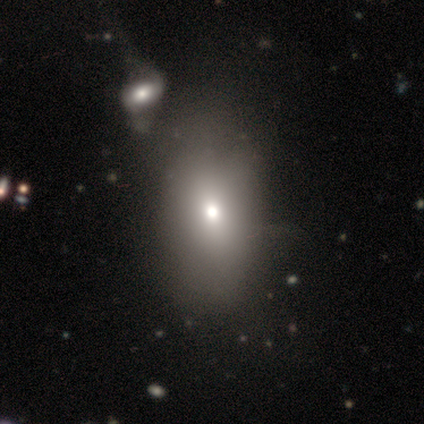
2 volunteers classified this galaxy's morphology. Smooth or featured? 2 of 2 (100%) said smooth. How rounded? 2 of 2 (100%) said in between. Merging? 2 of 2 (100%) said none.